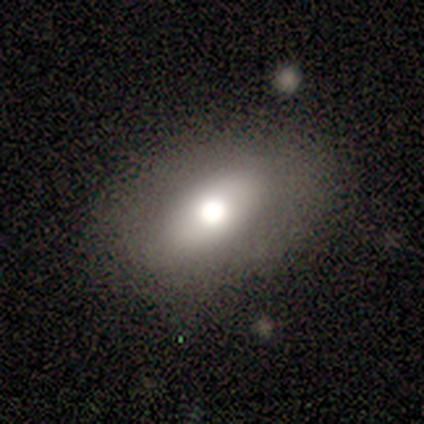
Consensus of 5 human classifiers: This is clearly a smooth galaxy (100%). How rounded: clearly in between (80%). Merging: likely none (60%).